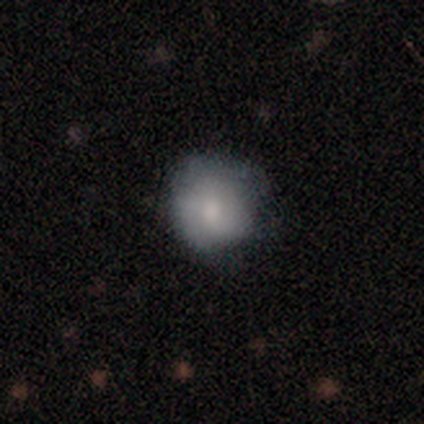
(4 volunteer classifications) smooth-or-featured: smooth: 100% | featured or disk: 0% | star or artifact: 0%
  how-rounded: round: 75% | in between: 25% | cigar-shaped: 0%
  merging: none: 50% (tied) | minor disturbance: 50% (tied) | major disturbance: 0% | merger: 0%